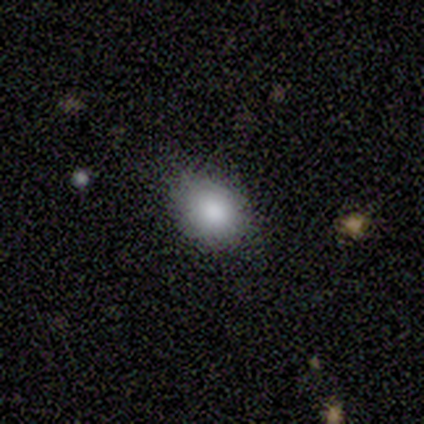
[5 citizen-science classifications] Smooth or featured? 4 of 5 (80%) said smooth. How rounded? 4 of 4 (100%) said in between. Merging? 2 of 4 (50%, tied with minor disturbance) said none.